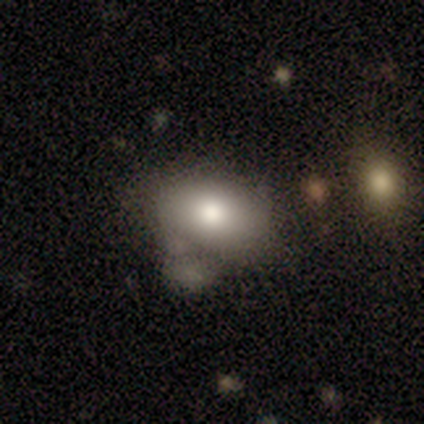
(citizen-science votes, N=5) Smooth or featured?
  - smooth: 80% *
  - featured or disk: 20%
  - star or artifact: 0%
How rounded?
  - in between: 100% *
  - round: 0%
  - cigar-shaped: 0%
Merging?
  - none: 40% *
  - minor disturbance: 20%
  - major disturbance: 20%
  - merger: 20%